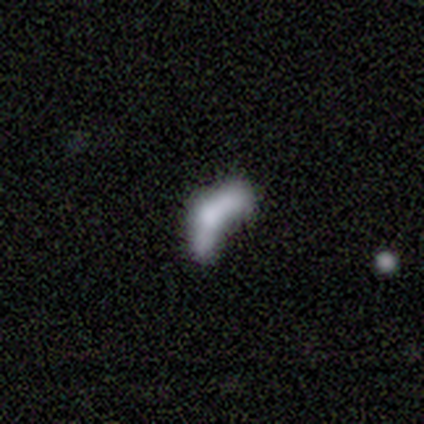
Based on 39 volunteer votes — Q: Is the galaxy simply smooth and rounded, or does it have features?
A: smooth — 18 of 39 (46%).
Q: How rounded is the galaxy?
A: in between — 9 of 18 (50%, tied with cigar-shaped).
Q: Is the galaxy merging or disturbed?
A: merger — 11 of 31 (35%).